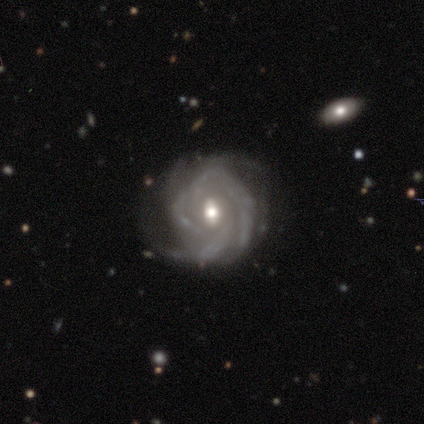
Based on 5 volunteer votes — A featured or disk galaxy (80%) with no bar (50%), 3 (50%) tight (75%) spiral arms (100%) and a moderate central bulge (50%, tied with small). Merging: none (80%).